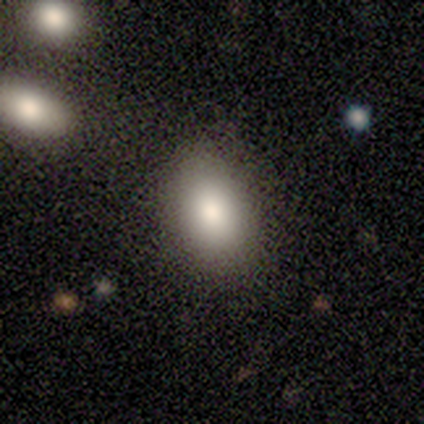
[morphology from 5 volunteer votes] This appears to be a smooth galaxy with no disk features (100%) that is in between round and cigar-shaped (60%). Merging: none (80%).